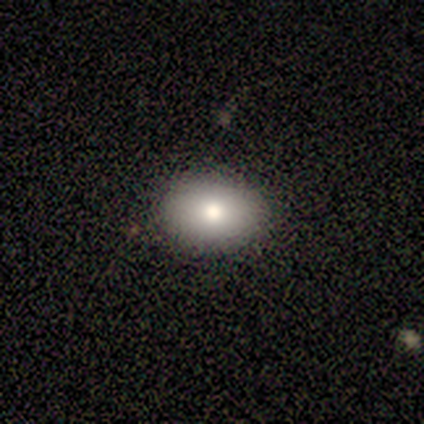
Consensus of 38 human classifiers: Overall: smooth (84%). How rounded: in between (75%). Merging: none (86%).